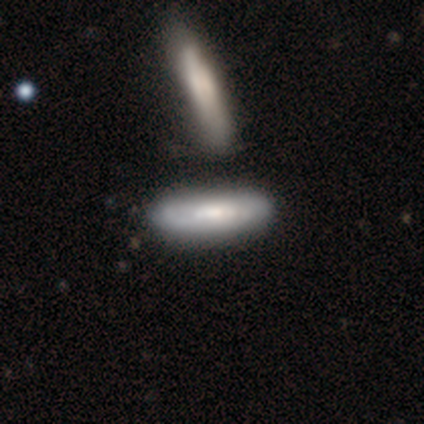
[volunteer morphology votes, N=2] Smooth or featured?
  - smooth: 100% *
  - featured or disk: 0%
  - star or artifact: 0%
How rounded?
  - in between: 50% * (tied)
  - cigar-shaped: 50% * (tied)
  - round: 0%
Merging?
  - none: 100% *
  - minor disturbance: 0%
  - major disturbance: 0%
  - merger: 0%